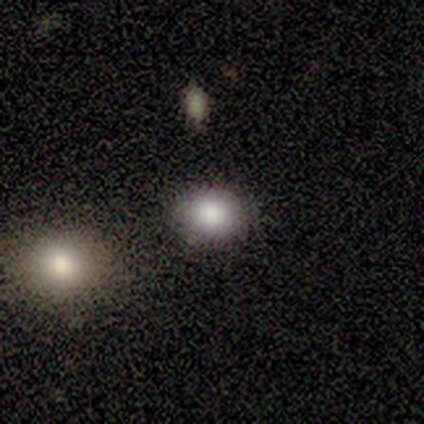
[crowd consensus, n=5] Morphology: type=smooth (100%); roundness=in between (60%); merging=none (100%).